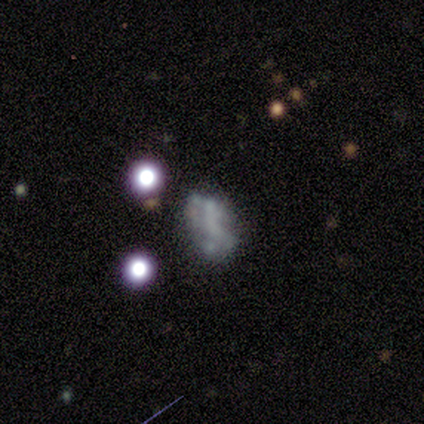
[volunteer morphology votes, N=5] Smooth or featured? 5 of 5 (100%) said featured or disk. Edge-on disk? 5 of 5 (100%) said no. Bar? 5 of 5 (100%) said no. Spiral arms? 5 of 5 (100%) said no. Bulge size? 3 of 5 (60%) said none. Merging? 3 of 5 (60%) said none.